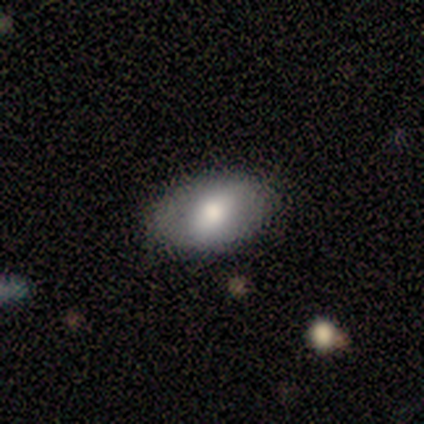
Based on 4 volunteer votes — Morphology: type=featured or disk (75%); edge-on=no (100%); bar=strong (33%, tied with weak and no); spiral arms=no (67%); bulge=dominant (33%, tied with moderate and small); merging=none (75%).